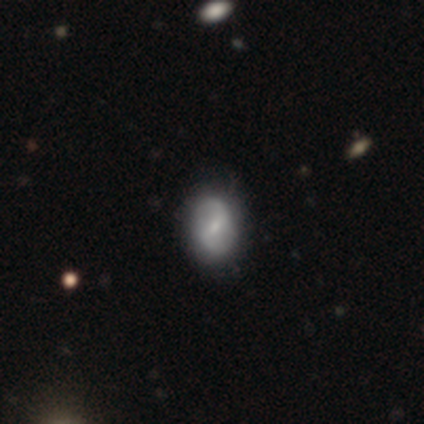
Overall: featured or disk (60%; smooth 40%). Edge-on disk: no (100%). Bar: weak (67%; strong 33%). Spiral arms: yes (67%; no 33%). Spiral arm count: 2 (100%). Spiral winding: medium (50%, tied with loose). Bulge size: moderate (67%; small 33%). Merging: none (100%).